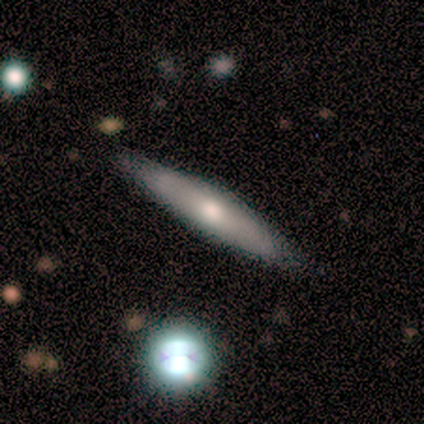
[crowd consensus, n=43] Smooth or featured? 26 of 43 (60%) said featured or disk. Edge-on disk? 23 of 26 (88%) said yes. Edge-on bulge? 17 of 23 (74%) said rounded. Merging? 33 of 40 (82%) said none.